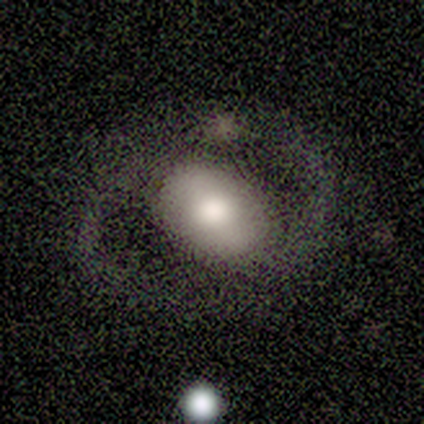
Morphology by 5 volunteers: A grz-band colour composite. It shows a featured or disk galaxy (60%) with a strong bar (67%), 2 (100%) loose (67%) spiral arms (100%) and a large central bulge (67%). Merging: none (80%).